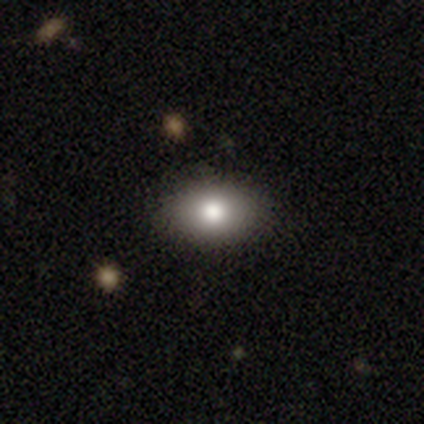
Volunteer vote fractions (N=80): Volunteers were most divided on "merging": none: 42%, minor disturbance: 6%, major disturbance: 1%, merger: 0%. More confident: smooth or featured — smooth (89%); how rounded — in between (83%).